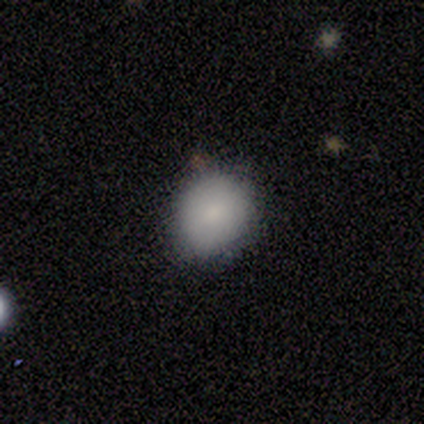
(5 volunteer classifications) This is clearly a smooth galaxy (80%). How rounded: likely round (75%). Merging: clearly none (100%).